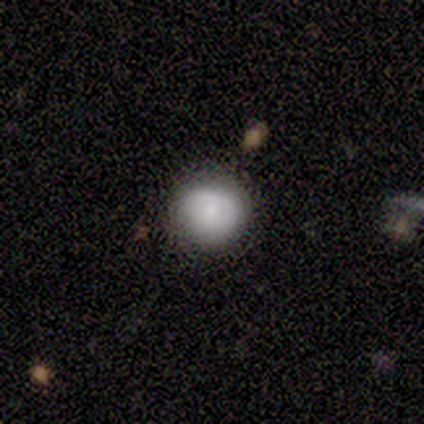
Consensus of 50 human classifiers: smooth 74%, featured or disk 20%, star or artifact 6%. Down the decision tree: how rounded — round (89%); merging — none (72%).